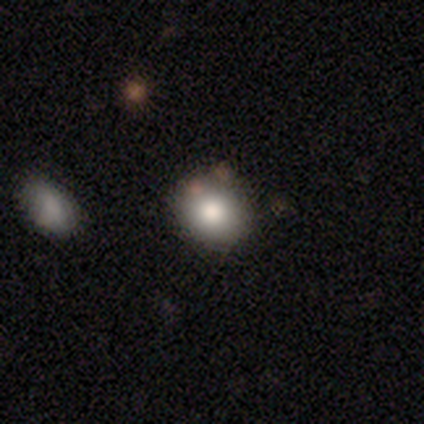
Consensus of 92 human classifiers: A smooth galaxy with no disk features (77%) that is round (76%). Merging: none (81%).